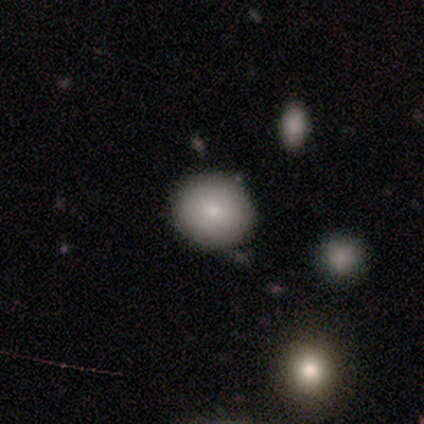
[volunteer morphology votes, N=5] Smooth or featured?
  - smooth: 100% *
  - featured or disk: 0%
  - star or artifact: 0%
How rounded?
  - round: 100% *
  - in between: 0%
  - cigar-shaped: 0%
Merging?
  - none: 80% *
  - minor disturbance: 20%
  - major disturbance: 0%
  - merger: 0%